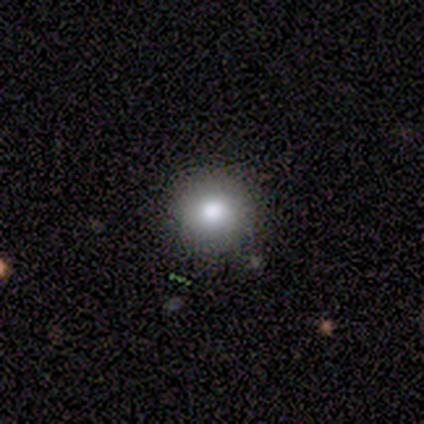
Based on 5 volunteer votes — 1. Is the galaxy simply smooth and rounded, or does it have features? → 60% smooth, 40% featured or disk, 0% star or artifact.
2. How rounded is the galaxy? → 100% round, 0% in between, 0% cigar-shaped.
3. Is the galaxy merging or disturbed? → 100% none, 0% minor disturbance, 0% major disturbance, 0% merger.